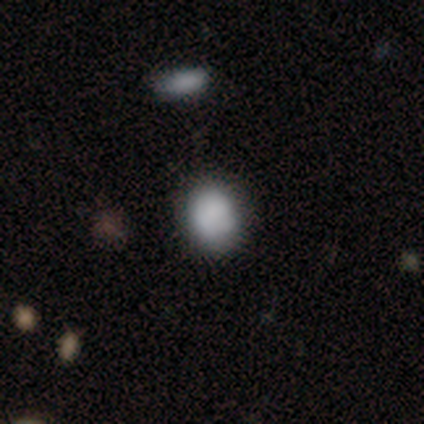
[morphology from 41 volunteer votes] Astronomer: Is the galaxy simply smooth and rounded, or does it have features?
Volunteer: smooth — 85%.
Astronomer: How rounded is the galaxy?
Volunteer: round — 51% (runner-up: in between, 49%).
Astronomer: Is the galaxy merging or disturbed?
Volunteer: none — 68%.